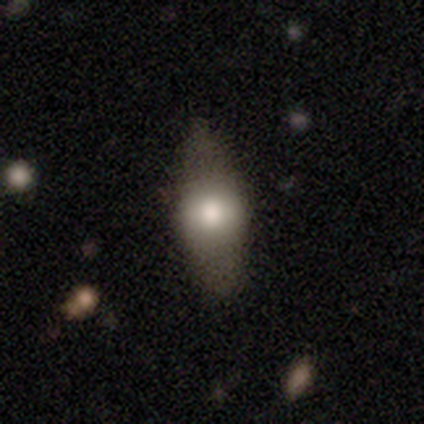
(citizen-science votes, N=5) A smooth galaxy with no disk features (60%) that is in between round and cigar-shaped (100%).

Vote fractions:
- Smooth or featured? smooth: 60% / featured or disk: 40% / star or artifact: 0%
- How rounded? in between: 100% / round: 0% / cigar-shaped: 0%
- Merging? none: 60% / minor disturbance: 40% / major disturbance: 0% / merger: 0%